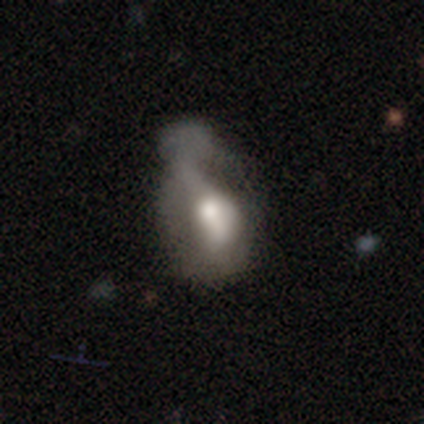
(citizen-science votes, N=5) Smooth or featured? 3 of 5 (60%) said featured or disk. Edge-on disk? 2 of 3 (67%) said no. Bar? 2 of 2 (100%) said no. Spiral arms? 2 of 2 (100%) said no. Bulge size? 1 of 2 (50%, tied with moderate) said large. Merging? 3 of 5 (60%) said major disturbance.